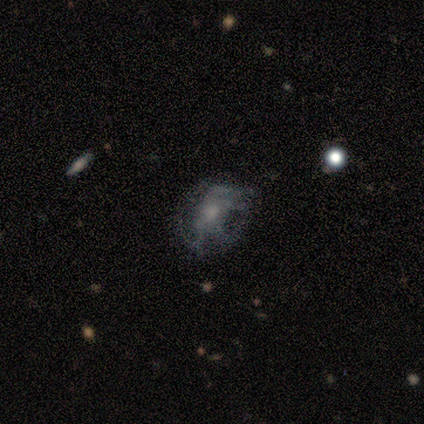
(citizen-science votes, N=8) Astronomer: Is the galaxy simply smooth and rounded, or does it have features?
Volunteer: featured or disk — 75%.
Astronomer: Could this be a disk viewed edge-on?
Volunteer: no — 100%.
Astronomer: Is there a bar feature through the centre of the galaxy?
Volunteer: no — 100%.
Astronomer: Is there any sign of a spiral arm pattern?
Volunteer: no — 67%.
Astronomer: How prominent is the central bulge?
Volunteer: moderate — 67%.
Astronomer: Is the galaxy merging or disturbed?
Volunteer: none — 43%, tied with major disturbance at 43%.